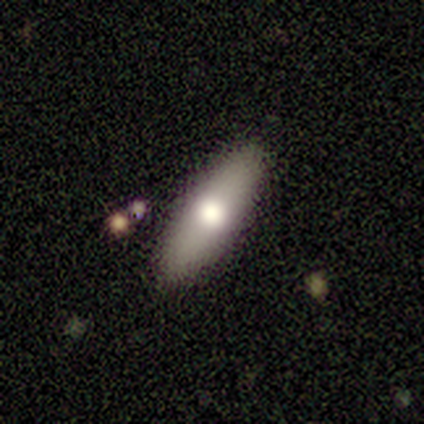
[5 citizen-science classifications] Smooth or featured?
  - smooth: 40% * (tied)
  - featured or disk: 40% * (tied)
  - star or artifact: 20%
How rounded?
  - in between: 50% * (tied)
  - cigar-shaped: 50% * (tied)
  - round: 0%
Merging?
  - none: 100% *
  - minor disturbance: 0%
  - major disturbance: 0%
  - merger: 0%